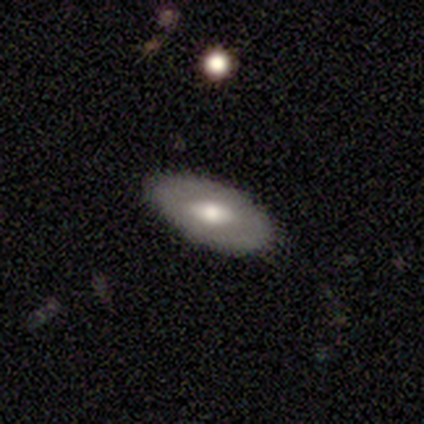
This appears to be a smooth galaxy with no disk features (60%) that is in between round and cigar-shaped (100%). Merging: none (80%).